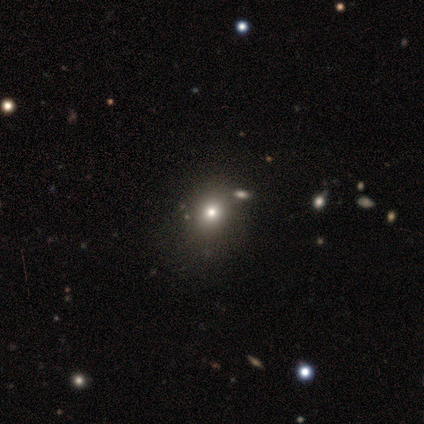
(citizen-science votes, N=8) This appears to be a smooth galaxy with no disk features (75%) that is round (83%). Merging: none (67%).